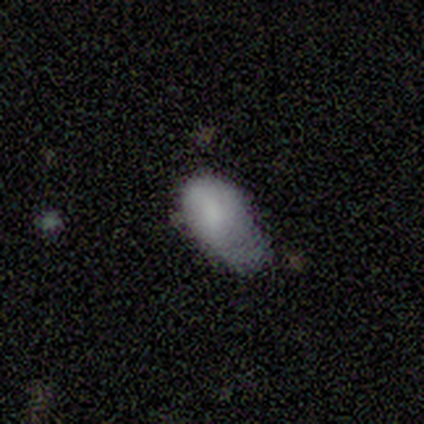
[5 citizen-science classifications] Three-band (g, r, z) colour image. It shows a smooth galaxy with no disk features (80%) that is in between round and cigar-shaped (75%). Merging: minor disturbance (75%).